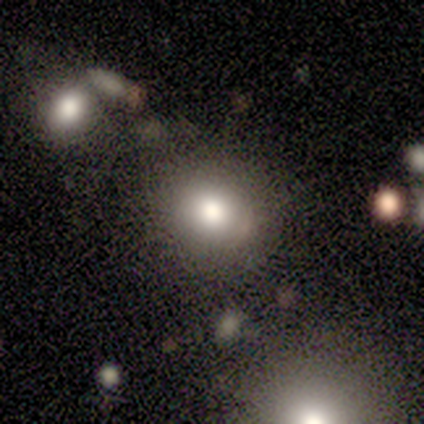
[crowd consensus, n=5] smooth-or-featured: smooth: 60% | featured or disk: 40% | star or artifact: 0%
  how-rounded: round: 67% | in between: 33% | cigar-shaped: 0%
  merging: none: 100% | minor disturbance: 0% | major disturbance: 0% | merger: 0%